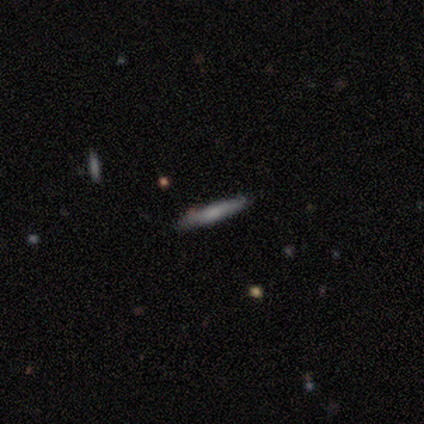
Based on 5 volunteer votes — Volunteers were most divided on "smooth or featured" (2-way tie): smooth: 40%, featured or disk: 40%, star or artifact: 20%. More confident: how rounded — cigar-shaped (100%); merging — none (100%).